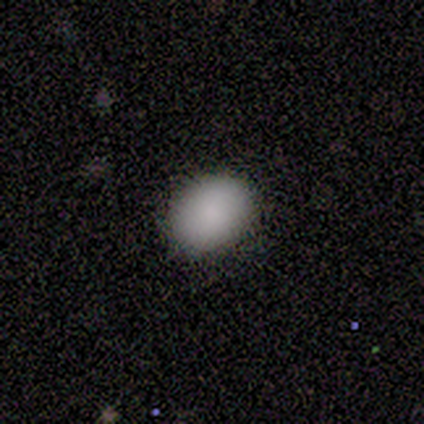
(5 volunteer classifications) smooth-or-featured: smooth: 80% | star or artifact: 20% | featured or disk: 0%
  how-rounded: in between: 75% | round: 25% | cigar-shaped: 0%
  merging: none: 100% | minor disturbance: 0% | major disturbance: 0% | merger: 0%